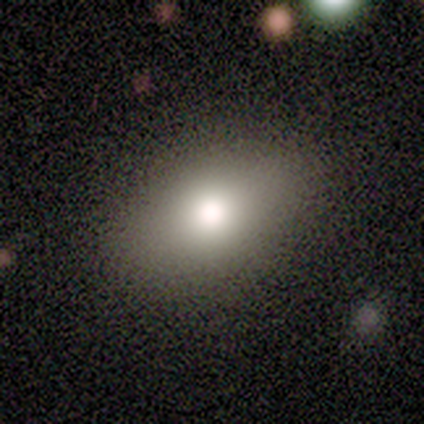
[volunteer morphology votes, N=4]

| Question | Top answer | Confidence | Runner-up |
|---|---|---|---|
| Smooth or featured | smooth | 100% | — |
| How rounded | in between | 75% | round (25%) |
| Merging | none | 100% | — |